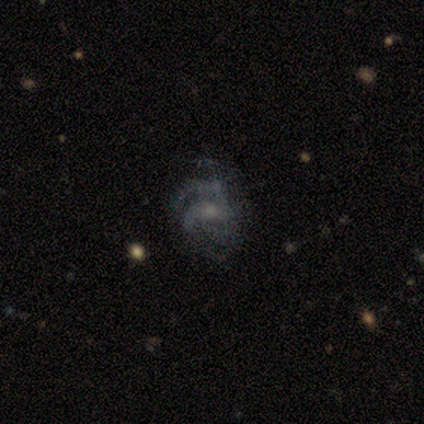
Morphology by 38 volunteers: smooth-or-featured: featured or disk: 79% | smooth: 11% | star or artifact: 11%
  disk-edge-on: no: 97% | yes: 3%
    bar: no: 76% | weak: 24% | strong: 0%
    has-spiral-arms: yes: 83% | no: 17%
      spiral-winding: tight: 42% (tied) | medium: 42% (tied) | loose: 17%
      spiral-arm-count: can't tell: 50% | 2: 25% | 3: 21% | more than 4: 4% | 1: 0% | 4: 0%
    bulge-size: small: 66% | moderate: 24% | none: 10% | dominant: 0% | large: 0%
  merging: none: 56% | major disturbance: 26% | minor disturbance: 18% | merger: 0%